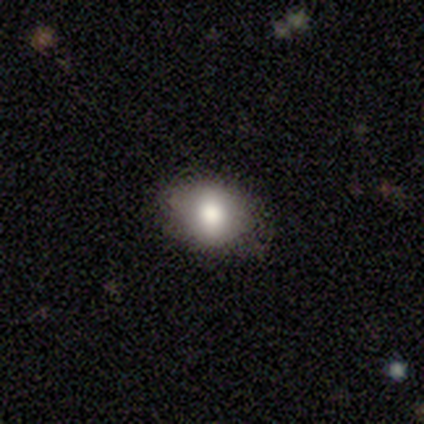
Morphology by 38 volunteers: smooth_or_featured: smooth (p=0.66) [alt: featured or disk p=0.18]
how_rounded: round (p=0.56) [alt: in between p=0.44]
merging: none (p=0.84) [alt: minor disturbance p=0.09]